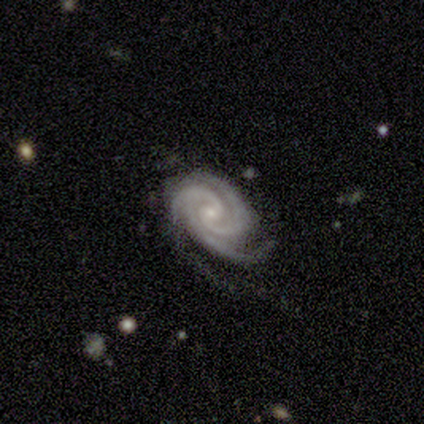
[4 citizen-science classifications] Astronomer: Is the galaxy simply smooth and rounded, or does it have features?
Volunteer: featured or disk — 100%.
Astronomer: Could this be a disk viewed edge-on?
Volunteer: no — 100%.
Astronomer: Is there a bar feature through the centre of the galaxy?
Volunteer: no — 75%.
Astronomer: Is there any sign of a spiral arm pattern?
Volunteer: yes — 100%.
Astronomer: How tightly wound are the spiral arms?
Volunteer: tight — 75%.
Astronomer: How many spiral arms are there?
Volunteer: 3 — 75%.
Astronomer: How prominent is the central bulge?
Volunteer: moderate — 50%, tied with small at 50%.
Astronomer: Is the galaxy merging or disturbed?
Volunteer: none — 50%, tied with minor disturbance at 50%.